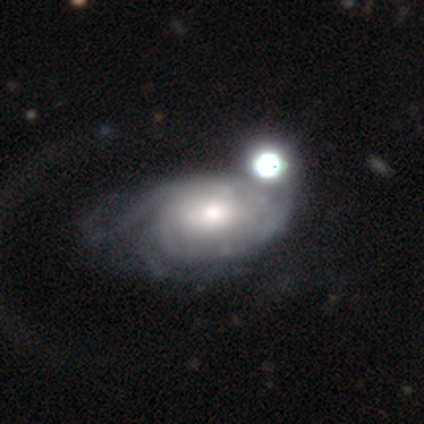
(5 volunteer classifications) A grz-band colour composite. It shows a featured or disk galaxy (60%) with no bar (100%), tight (50%, tied with medium) spiral arms (67%) and a moderate central bulge (67%). Merging: merger (50%).